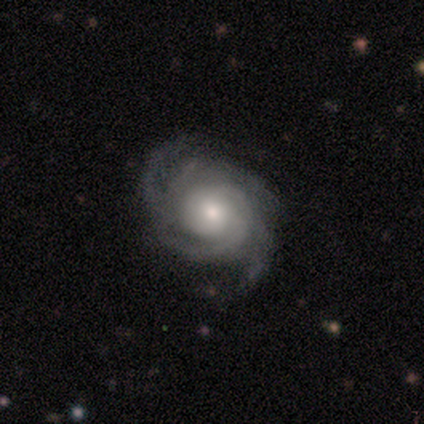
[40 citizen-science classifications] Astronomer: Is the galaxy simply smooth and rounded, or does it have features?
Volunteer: featured or disk — 85%.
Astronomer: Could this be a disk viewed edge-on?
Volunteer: no — 100%.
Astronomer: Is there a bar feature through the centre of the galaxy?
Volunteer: no — 68%.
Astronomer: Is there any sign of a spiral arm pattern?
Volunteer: yes — 94%.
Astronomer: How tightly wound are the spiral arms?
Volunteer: tight — 75%.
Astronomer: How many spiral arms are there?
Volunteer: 4 — 31% (runner-up: 2, 25%).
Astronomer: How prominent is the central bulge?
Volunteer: moderate — 53%.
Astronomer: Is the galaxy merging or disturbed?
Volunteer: none — 76%.